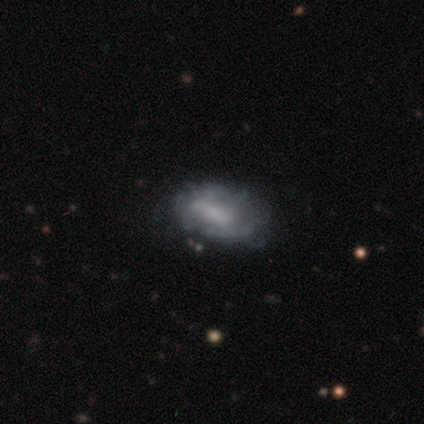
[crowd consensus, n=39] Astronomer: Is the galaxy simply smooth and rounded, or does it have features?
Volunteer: featured or disk — 56% (runner-up: smooth, 33%).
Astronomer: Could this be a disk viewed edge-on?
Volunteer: no — 95%.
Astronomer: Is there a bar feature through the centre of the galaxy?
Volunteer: no — 52% (runner-up: weak, 38%).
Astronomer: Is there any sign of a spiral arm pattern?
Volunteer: no — 67%.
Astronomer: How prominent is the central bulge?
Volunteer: none — 52%.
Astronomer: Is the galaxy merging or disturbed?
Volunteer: none — 66%.